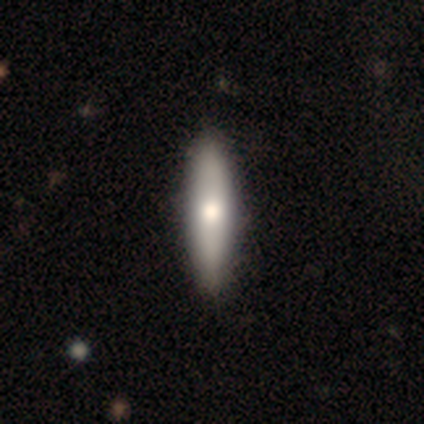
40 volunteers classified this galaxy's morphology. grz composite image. It shows a smooth galaxy with no disk features (55%) that is cigar-shaped (82%). Merging: none (72%).